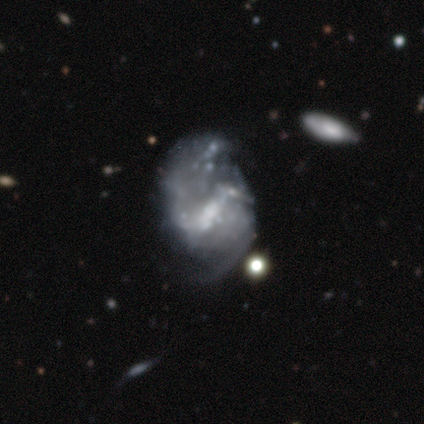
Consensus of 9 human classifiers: Morphology: type=featured or disk (100%); edge-on=no (100%); bar=weak (44%); spiral arms=yes (56%); winding=medium (80%); arm count=2 (100%); bulge=moderate (33%, tied with small); merging=major disturbance (56%).